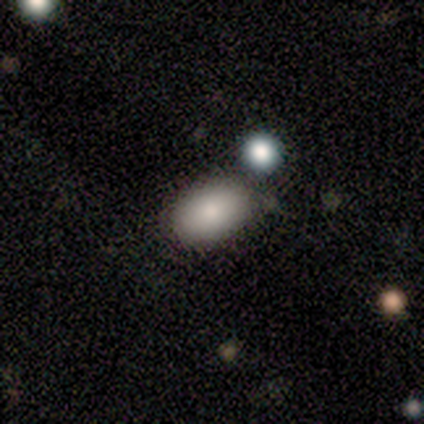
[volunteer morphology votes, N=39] A smooth galaxy with no disk features (82%) that is in between round and cigar-shaped (97%). Merging: none (73%).